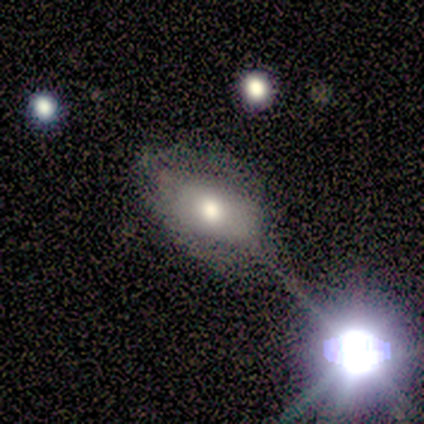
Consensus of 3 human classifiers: smooth-or-featured: smooth: 100% | featured or disk: 0% | star or artifact: 0%
  how-rounded: in between: 100% | round: 0% | cigar-shaped: 0%
  merging: major disturbance: 100% | none: 0% | minor disturbance: 0% | merger: 0%